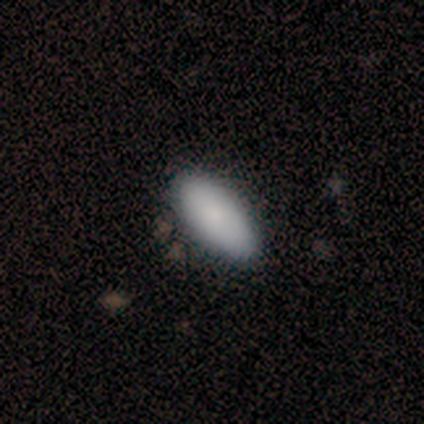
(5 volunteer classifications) Smooth or featured: smooth — 80% (star or artifact — 20%)
How rounded: in between — 75% (cigar-shaped — 25%)
Merging: none — 75% (minor disturbance — 25%)